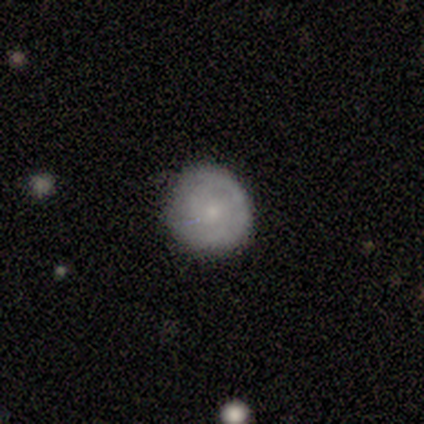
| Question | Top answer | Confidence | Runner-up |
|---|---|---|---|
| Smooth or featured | featured or disk | 70% | smooth (30%) |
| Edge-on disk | no | 100% | — |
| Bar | no | 100% | — |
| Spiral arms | yes | 86% | no (14%) |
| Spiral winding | tight | 50% | tied: medium (50%) |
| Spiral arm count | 1 | 33% | tied: 2 (33%), can't tell (33%) |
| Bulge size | moderate | 43% | tied: small (43%) |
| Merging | none | 70% | minor disturbance (30%) |